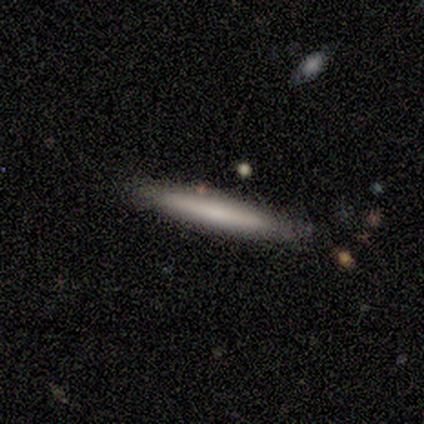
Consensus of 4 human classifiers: Smooth or featured? 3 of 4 (75%) said smooth. How rounded? 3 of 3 (100%) said cigar-shaped. Merging? 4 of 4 (100%) said none.